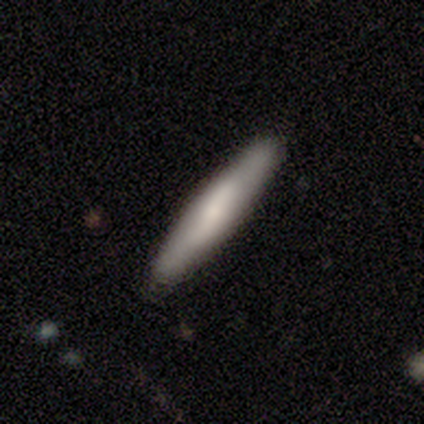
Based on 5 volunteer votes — Smooth or featured?
  - smooth: 60% *
  - featured or disk: 20%
  - star or artifact: 20%
How rounded?
  - cigar-shaped: 100% *
  - round: 0%
  - in between: 0%
Merging?
  - none: 75% *
  - minor disturbance: 25%
  - major disturbance: 0%
  - merger: 0%